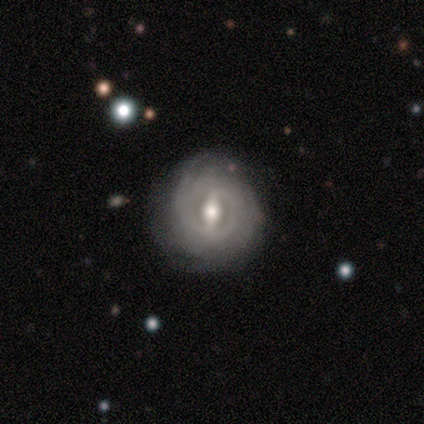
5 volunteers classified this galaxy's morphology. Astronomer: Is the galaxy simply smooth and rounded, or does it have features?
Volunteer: featured or disk — 60%.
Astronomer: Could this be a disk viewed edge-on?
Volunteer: no — 67%.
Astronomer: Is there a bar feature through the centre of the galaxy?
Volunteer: strong — 100%.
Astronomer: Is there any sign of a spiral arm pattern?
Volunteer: yes — 50%, tied with no at 50%.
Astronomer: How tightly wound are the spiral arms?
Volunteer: tight — 100%.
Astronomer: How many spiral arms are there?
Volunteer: can't tell — 100%.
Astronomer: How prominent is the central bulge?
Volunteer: large — 50%, tied with moderate at 50%.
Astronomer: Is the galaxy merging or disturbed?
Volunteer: none — 75%.